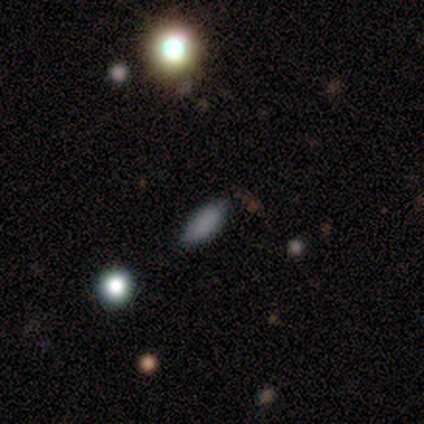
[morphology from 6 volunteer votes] A smooth galaxy with no disk features (67%) that is in between round and cigar-shaped (50%, tied with cigar-shaped).

Vote fractions:
- Smooth or featured? smooth: 67% / star or artifact: 33% / featured or disk: 0%
- How rounded? in between: 50% (tied) / cigar-shaped: 50% (tied) / round: 0%
- Merging? none: 100% / minor disturbance: 0% / major disturbance: 0% / merger: 0%